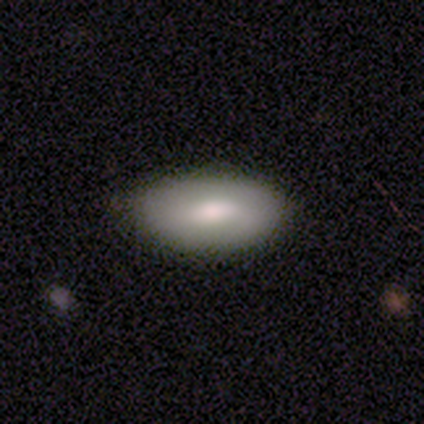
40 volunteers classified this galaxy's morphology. Smooth or featured: smooth — 65% (featured or disk — 30%)
How rounded: in between — 96% (cigar-shaped — 4%)
Merging: none — 84% (minor disturbance — 16%)